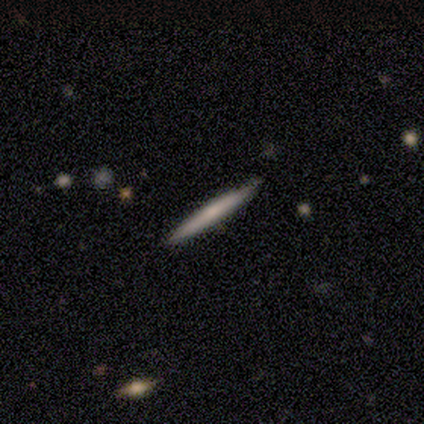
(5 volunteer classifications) smooth_or_featured: smooth (p=0.80) [alt: featured or disk p=0.20]
how_rounded: cigar-shaped (p=1.00)
merging: none (p=1.00)